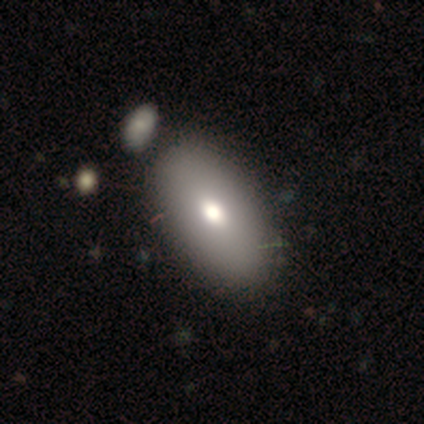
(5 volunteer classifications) Q: Smooth or featured?
A: smooth (40%); tied with: featured or disk (40%)
Q: How rounded?
A: in between (100%)
Q: Merging?
A: none (75%); runner-up: minor disturbance (25%)